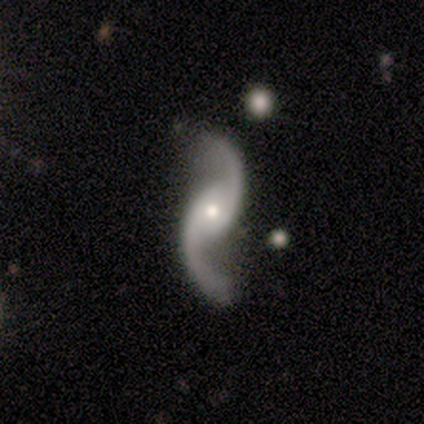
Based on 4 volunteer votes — Smooth or featured? 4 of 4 (100%) said featured or disk. Edge-on disk? 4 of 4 (100%) said no. Bar? 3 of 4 (75%) said no. Spiral arms? 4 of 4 (100%) said yes. Spiral winding? 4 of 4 (100%) said loose. Spiral arm count? 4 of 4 (100%) said 2. Bulge size? 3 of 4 (75%) said small. Merging? 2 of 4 (50%) said none.